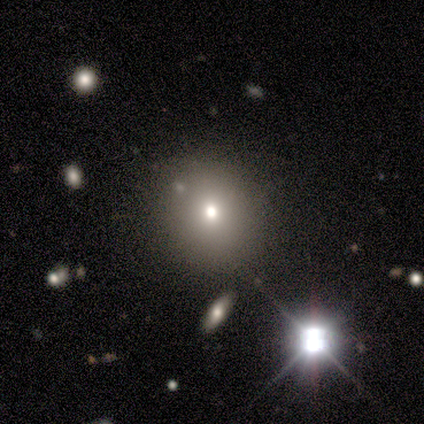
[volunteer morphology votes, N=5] Smooth or featured? smooth (80%)
How rounded? round (100%)
Merging? none (80%)